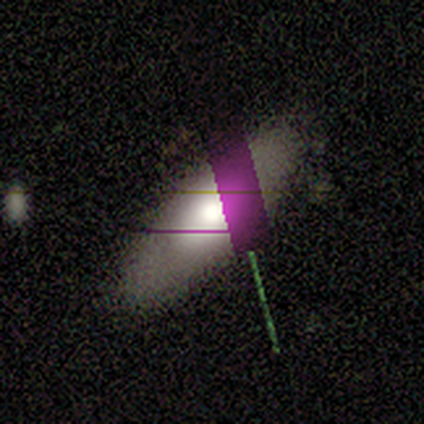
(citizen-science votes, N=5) smooth-or-featured: smooth: 60% | star or artifact: 40% | featured or disk: 0%
  how-rounded: in between: 67% | cigar-shaped: 33% | round: 0%
  merging: none: 67% | minor disturbance: 33% | major disturbance: 0% | merger: 0%